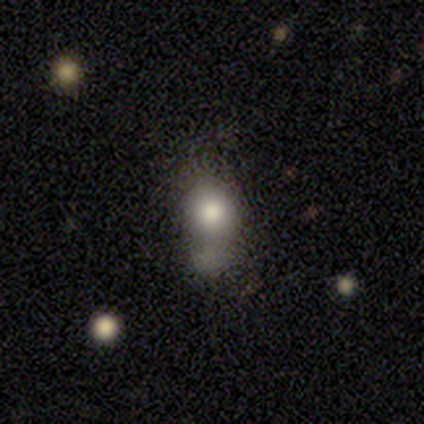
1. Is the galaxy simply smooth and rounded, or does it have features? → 40% smooth (tied), 40% featured or disk (tied), 20% star or artifact.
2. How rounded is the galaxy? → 50% round (tied), 50% in between (tied), 0% cigar-shaped.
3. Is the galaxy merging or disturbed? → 50% merger, 25% none, 25% major disturbance, 0% minor disturbance.